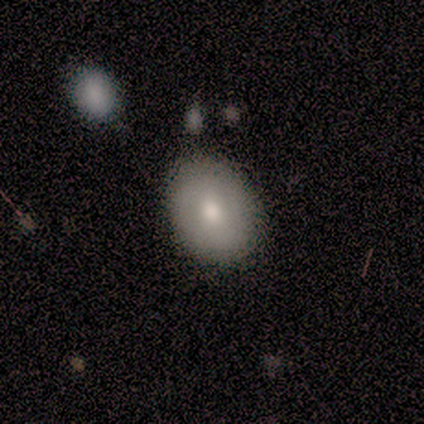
This is possibly a smooth galaxy (57%). How rounded: likely in between (75%). Merging: possibly none (57%).